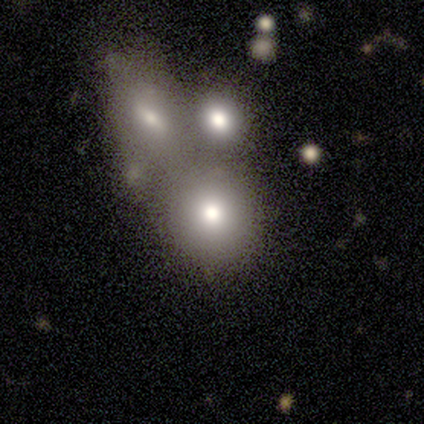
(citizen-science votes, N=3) Q: Smooth or featured?
A: smooth (100%)
Q: How rounded?
A: round (67%); runner-up: in between (33%)
Q: Merging?
A: minor disturbance (67%); runner-up: merger (33%)